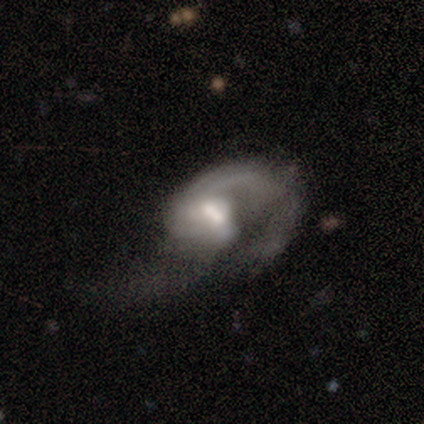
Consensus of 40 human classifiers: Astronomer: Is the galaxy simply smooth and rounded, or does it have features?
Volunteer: featured or disk — 88%.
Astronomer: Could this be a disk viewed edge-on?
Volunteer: no — 100%.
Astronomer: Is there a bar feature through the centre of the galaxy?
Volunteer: weak — 54% (runner-up: no, 40%).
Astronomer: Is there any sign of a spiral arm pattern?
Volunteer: yes — 89%.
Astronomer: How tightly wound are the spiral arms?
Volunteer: loose — 65%.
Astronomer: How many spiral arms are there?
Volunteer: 2 — 68%.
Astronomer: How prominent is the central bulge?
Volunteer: moderate — 46% (runner-up: large, 29%).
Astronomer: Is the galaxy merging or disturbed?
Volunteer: major disturbance — 45% (runner-up: none, 24%).